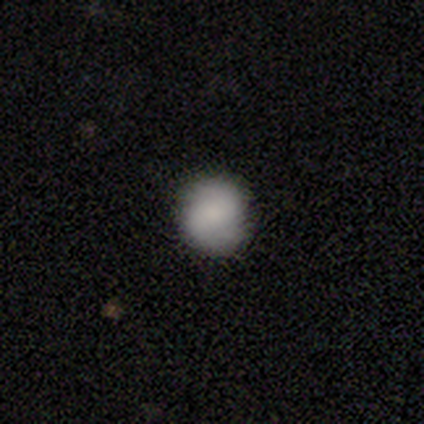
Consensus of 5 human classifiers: Smooth or featured? 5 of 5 (100%) said smooth. How rounded? 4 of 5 (80%) said round. Merging? 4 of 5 (80%) said none.